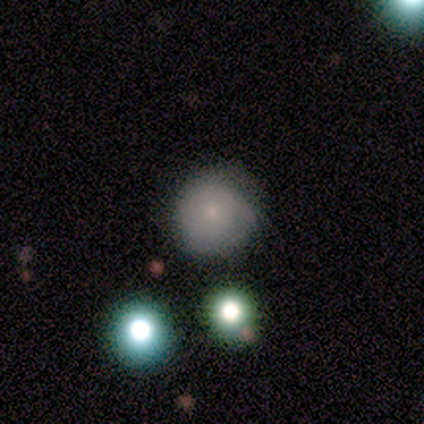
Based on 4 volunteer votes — Smooth or featured: smooth — 75% (featured or disk — 25%)
How rounded: round — 67% (in between — 33%)
Merging: none — 100%